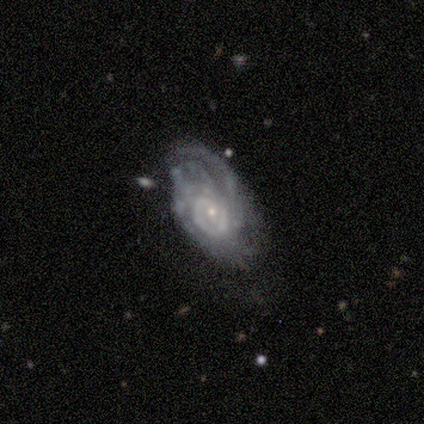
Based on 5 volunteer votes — Smooth or featured?
  - featured or disk: 80% *
  - smooth: 20%
  - star or artifact: 0%
Edge-on disk?
  - no: 100% *
  - yes: 0%
Bar?
  - no: 50% *
  - strong: 25%
  - weak: 25%
Spiral arms?
  - yes: 100% *
  - no: 0%
Spiral winding?
  - medium: 75% *
  - tight: 25%
  - loose: 0%
Spiral arm count?
  - can't tell: 75% *
  - 1: 25%
  - 2: 0%
  - 3: 0%
  - 4: 0%
  - more than 4: 0%
Bulge size?
  - small: 75% *
  - moderate: 25%
  - dominant: 0%
  - large: 0%
  - none: 0%
Merging?
  - none: 80% *
  - minor disturbance: 20%
  - major disturbance: 0%
  - merger: 0%